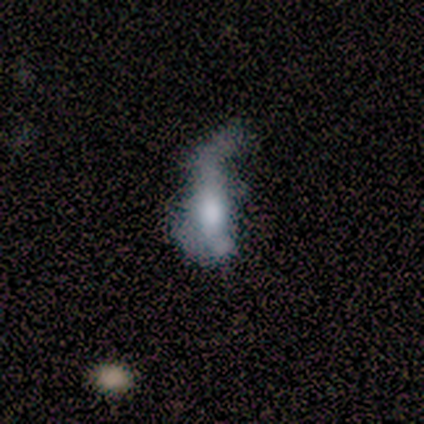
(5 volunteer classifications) Smooth or featured: smooth — 60% (featured or disk — 40%)
How rounded: in between — 100%
Merging: major disturbance — 80% (minor disturbance — 20%)